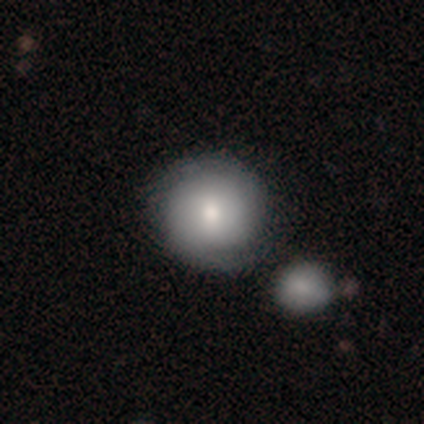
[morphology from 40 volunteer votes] Overall: smooth (52%; featured or disk 38%). How rounded: round (95%). Merging: none (42%; merger 22%).